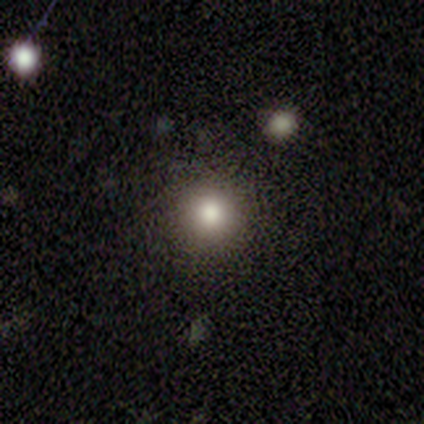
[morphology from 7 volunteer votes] Q: Smooth or featured?
A: smooth (71%); runner-up: featured or disk (14%)
Q: How rounded?
A: round (80%); runner-up: in between (20%)
Q: Merging?
A: none (83%); runner-up: merger (17%)